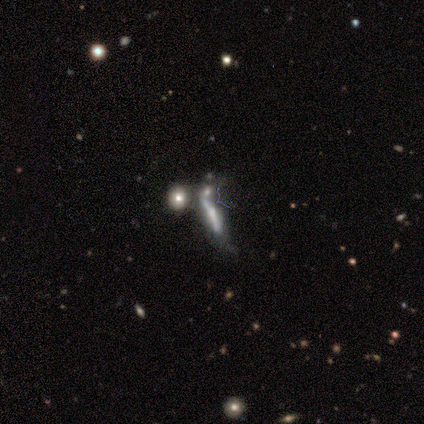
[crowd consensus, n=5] A featured or disk galaxy (80%) viewed edge-on (75%) with a rounded central bulge (67%). Merging: major disturbance (40%, tied with merger).